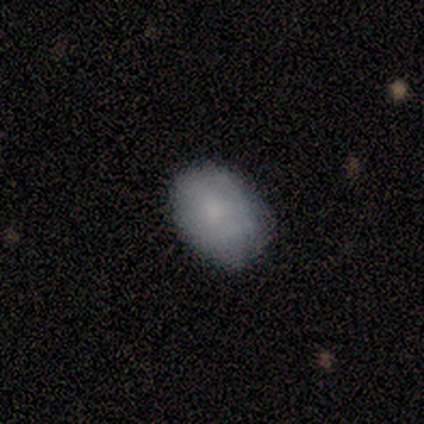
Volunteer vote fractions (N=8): Volunteers were most divided on "smooth or featured": smooth: 50%, featured or disk: 38%, star or artifact: 12%. More confident: how rounded — in between (75%); merging — none (71%).